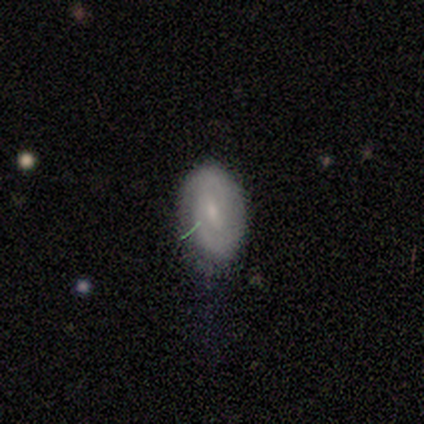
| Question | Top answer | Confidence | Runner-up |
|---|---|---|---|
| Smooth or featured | featured or disk | 60% | smooth (40%) |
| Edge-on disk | no | 67% | yes (33%) |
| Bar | strong | 50% | tied: weak (50%) |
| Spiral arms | yes | 100% | — |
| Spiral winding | tight | 100% | — |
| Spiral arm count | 2 | 100% | — |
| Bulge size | moderate | 50% | tied: small (50%) |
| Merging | none | 60% | minor disturbance (40%) |